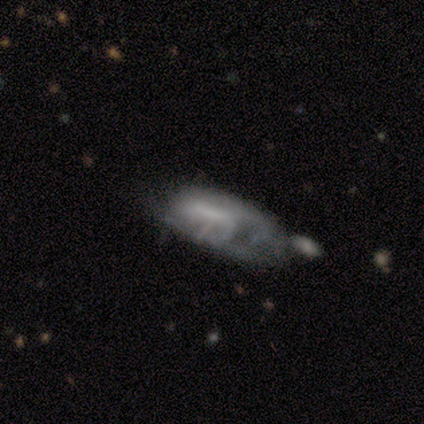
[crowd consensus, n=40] Smooth or featured?
  - featured or disk: 50% *
  - smooth: 38%
  - star or artifact: 12%
Edge-on disk?
  - no: 85% *
  - yes: 15%
Bar?
  - strong: 35% * (tied)
  - weak: 35% * (tied)
  - no: 29%
Spiral arms?
  - yes: 53% *
  - no: 47%
Spiral winding?
  - tight: 44% * (tied)
  - loose: 44% * (tied)
  - medium: 11%
Spiral arm count?
  - can't tell: 44% *
  - 1: 33%
  - 2: 22%
  - 3: 0%
  - 4: 0%
  - more than 4: 0%
Bulge size?
  - small: 41% * (tied)
  - none: 41% * (tied)
  - moderate: 12%
  - large: 6%
  - dominant: 0%
Merging?
  - major disturbance: 37% *
  - none: 23%
  - minor disturbance: 20%
  - merger: 20%